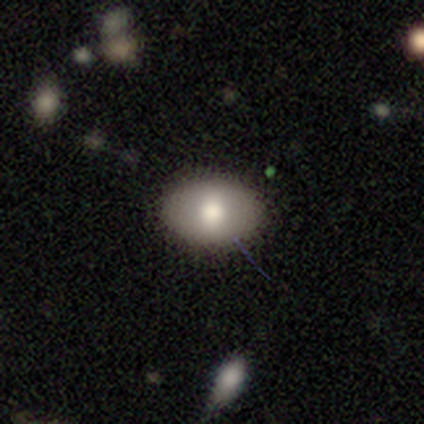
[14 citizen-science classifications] A smooth galaxy with no disk features (57%) that is in between round and cigar-shaped (100%).

Vote fractions:
- Smooth or featured? smooth: 57% / star or artifact: 29% / featured or disk: 14%
- How rounded? in between: 100% / round: 0% / cigar-shaped: 0%
- Merging? none: 80% / minor disturbance: 20% / major disturbance: 0% / merger: 0%